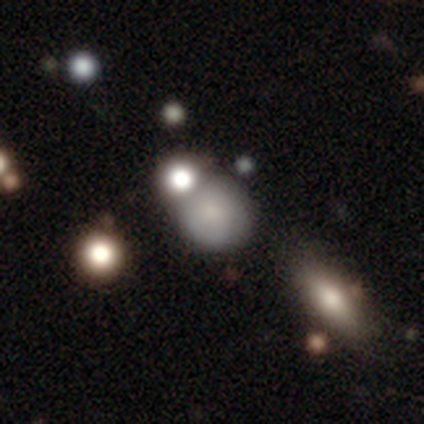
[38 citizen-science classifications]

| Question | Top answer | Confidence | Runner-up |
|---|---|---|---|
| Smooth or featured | smooth | 68% | featured or disk (24%) |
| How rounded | round | 96% | in between (4%) |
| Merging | none | 54% | merger (34%) |